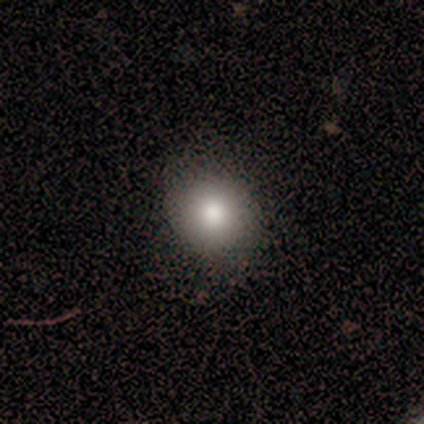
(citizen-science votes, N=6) Smooth or featured? smooth (100%)
How rounded? round (83%)
Merging? none (100%)